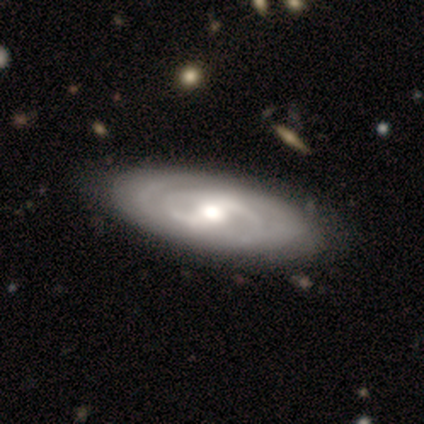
Smooth or featured? featured or disk (100%)
Edge-on disk? no (83%)
Bar? strong (40%, tied with weak)
Spiral arms? yes (80%)
Spiral winding? loose (50%)
Spiral arm count? 2 (75%)
Bulge size? moderate (60%)
Merging? none (83%)